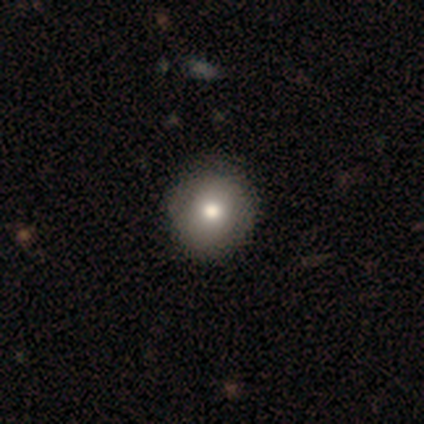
Smooth or featured? 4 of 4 (100%) said smooth. How rounded? 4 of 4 (100%) said round. Merging? 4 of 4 (100%) said none.